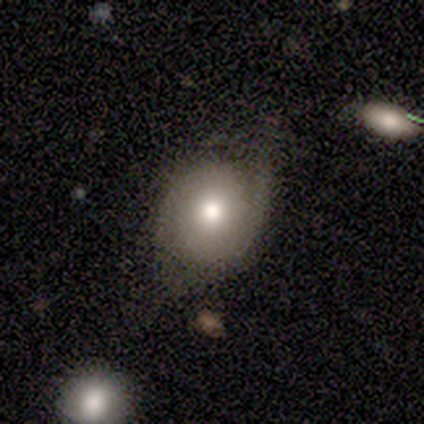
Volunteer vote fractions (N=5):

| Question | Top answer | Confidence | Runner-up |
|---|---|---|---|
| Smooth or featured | featured or disk | 60% | smooth (40%) |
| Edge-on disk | no | 100% | — |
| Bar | no | 100% | — |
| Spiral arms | yes | 67% | no (33%) |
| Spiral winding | medium | 50% | tied: loose (50%) |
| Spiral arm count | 2 | 50% | tied: can't tell (50%) |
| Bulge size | moderate | 67% | large (33%) |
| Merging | none | 80% | minor disturbance (20%) |